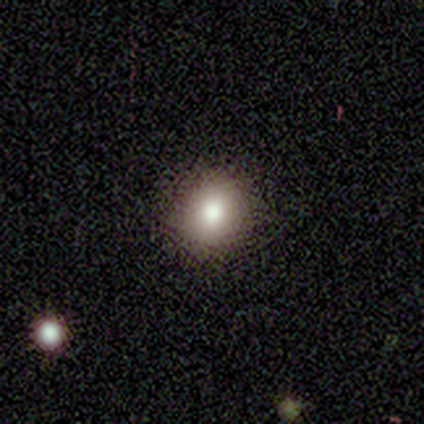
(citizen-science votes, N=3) Smooth or featured?
  - smooth: 100% *
  - featured or disk: 0%
  - star or artifact: 0%
How rounded?
  - round: 67% *
  - in between: 33%
  - cigar-shaped: 0%
Merging?
  - none: 100% *
  - minor disturbance: 0%
  - major disturbance: 0%
  - merger: 0%